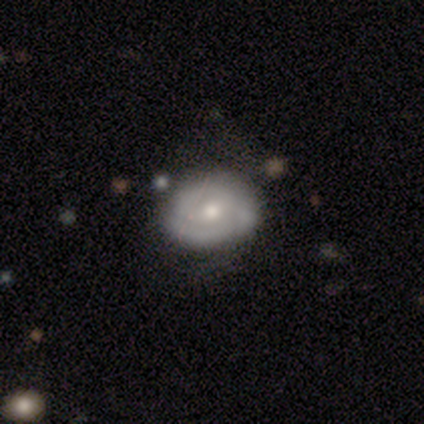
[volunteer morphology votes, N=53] smooth_or_featured: featured or disk (p=0.60) [alt: smooth p=0.34]
disk_edge_on: no (p=0.97) [alt: yes p=0.03]
bar: no (p=0.77) [alt: weak p=0.19]
has_spiral_arms: yes (p=0.68) [alt: no p=0.32]
spiral_winding: medium (p=0.52) [alt: tight p=0.48]
spiral_arm_count: 3 (p=0.48) [alt: 2 p=0.33]
bulge_size: moderate (p=0.61) [alt: small p=0.32]
merging: none (p=0.76) [alt: minor disturbance p=0.20]